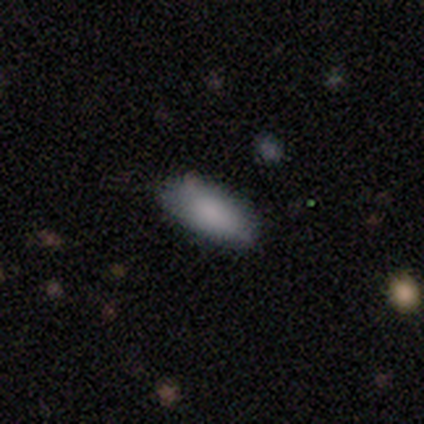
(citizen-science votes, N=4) Smooth or featured? smooth (75%)
How rounded? cigar-shaped (67%)
Merging? none (67%)